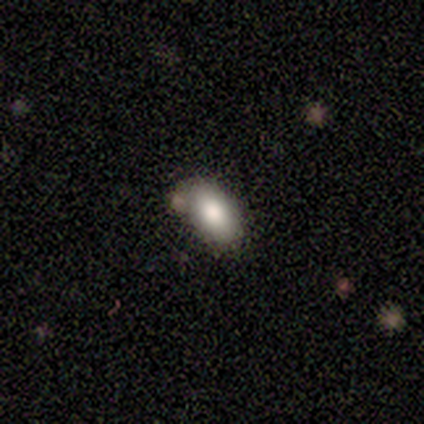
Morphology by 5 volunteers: This appears to be a smooth galaxy with no disk features (40%, tied with featured or disk) that is in between round and cigar-shaped (100%). Merging: none (100%).